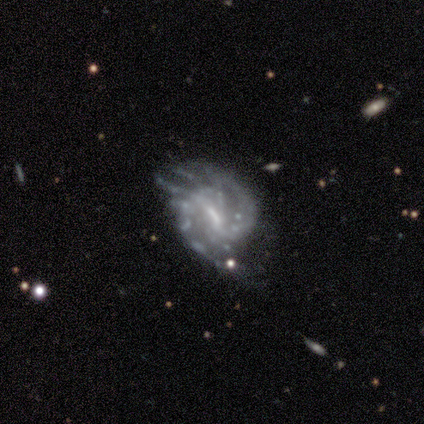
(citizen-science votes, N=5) Smooth or featured: featured or disk — 80% (smooth — 20%)
Edge-on disk: no — 100%
Bar: strong — 50% (tied with weak — 50%)
Spiral arms: yes — 100%
Spiral winding: medium — 75% (loose — 25%)
Spiral arm count: 2 — 100%
Bulge size: moderate — 50% (tied with small — 50%)
Merging: minor disturbance — 60% (none — 20%)